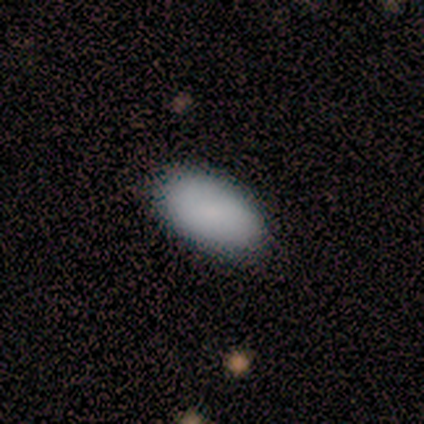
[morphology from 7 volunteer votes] Overall: smooth (86%). How rounded: in between (100%). Merging: none (100%).